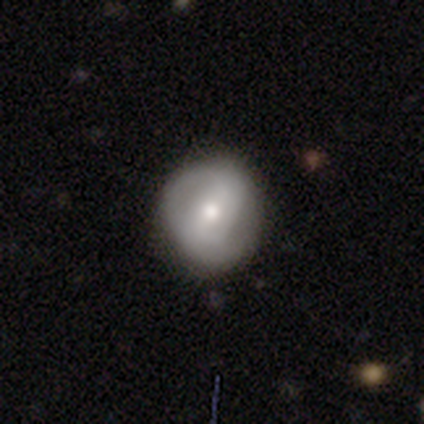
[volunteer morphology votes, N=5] A featured or disk galaxy (60%) with a strong bar (33%, tied with weak and no), 2 (100%) medium (67%) spiral arms (100%) and a moderate central bulge (67%).

Vote fractions:
- Smooth or featured? featured or disk: 60% / smooth: 20% / star or artifact: 20%
- Edge-on disk? no: 100% / yes: 0%
- Bar? strong: 33% (tied) / weak: 33% (tied) / no: 33% (tied)
- Spiral arms? yes: 100% / no: 0%
- Spiral winding? medium: 67% / tight: 33% / loose: 0%
- Spiral arm count? 2: 100% / 1: 0% / 3: 0% / 4: 0% / more than 4: 0% / can't tell: 0%
- Bulge size? moderate: 67% / large: 33% / dominant: 0% / small: 0% / none: 0%
- Merging? none: 75% / minor disturbance: 25% / major disturbance: 0% / merger: 0%